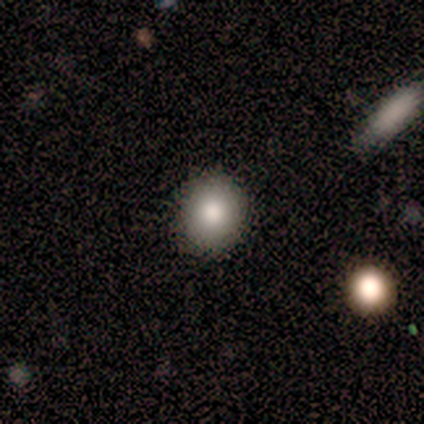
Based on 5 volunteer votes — This appears to be a smooth galaxy with no disk features (100%) that is round (100%). Merging: none (100%).